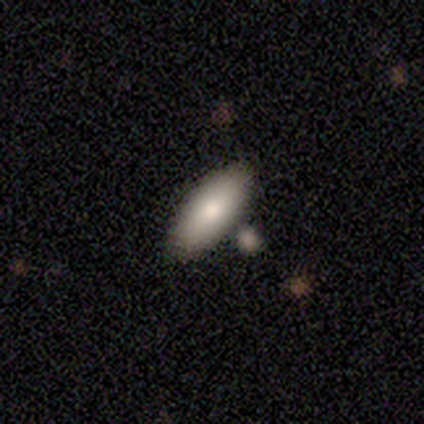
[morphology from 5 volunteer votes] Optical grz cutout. It shows a smooth galaxy with no disk features (100%) that is in between round and cigar-shaped (100%). Merging: none (80%).